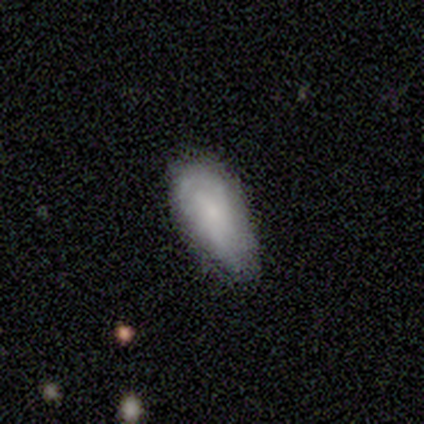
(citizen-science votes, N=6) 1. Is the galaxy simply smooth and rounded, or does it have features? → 83% smooth, 17% star or artifact, 0% featured or disk.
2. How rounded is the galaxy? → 80% cigar-shaped, 20% round, 0% in between.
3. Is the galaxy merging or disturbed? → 60% none, 40% minor disturbance, 0% major disturbance, 0% merger.